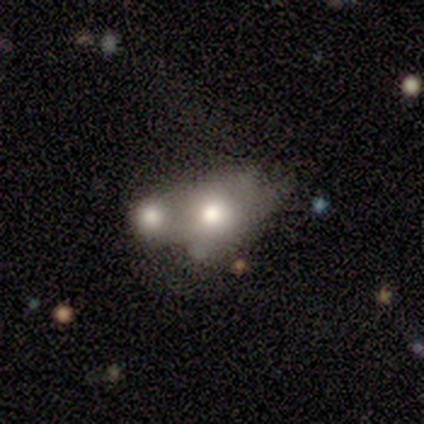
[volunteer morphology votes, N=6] This is clearly a smooth galaxy (83%). How rounded: likely in between (60%). Merging: clearly merger (83%).